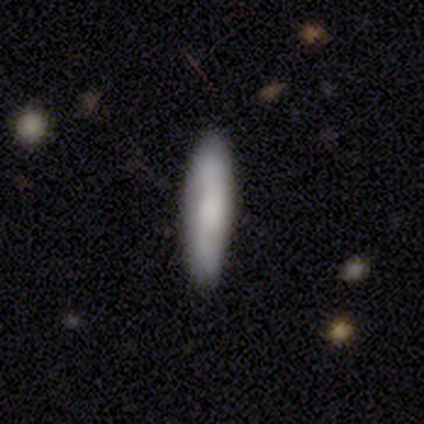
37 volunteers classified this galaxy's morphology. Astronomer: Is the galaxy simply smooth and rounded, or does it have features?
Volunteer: smooth — 62%.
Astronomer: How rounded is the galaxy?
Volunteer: cigar-shaped — 83%.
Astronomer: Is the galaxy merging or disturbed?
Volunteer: none — 83%.